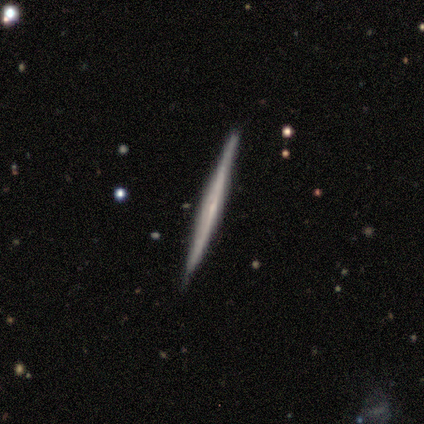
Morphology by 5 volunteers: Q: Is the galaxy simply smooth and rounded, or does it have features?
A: featured or disk — 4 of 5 (80%).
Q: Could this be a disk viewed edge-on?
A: yes — 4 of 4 (100%).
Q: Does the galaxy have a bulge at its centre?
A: none — 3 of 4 (75%).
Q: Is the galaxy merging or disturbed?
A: none — 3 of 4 (75%).